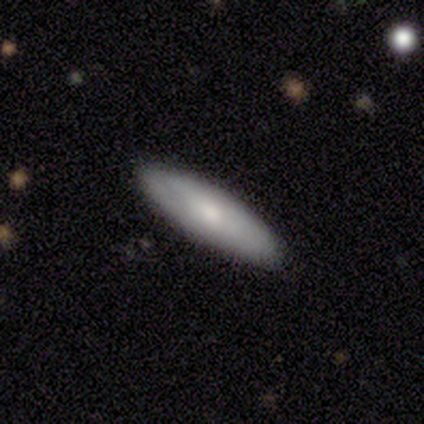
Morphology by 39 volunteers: Volunteers were most divided on "how rounded": cigar-shaped: 57%, in between: 43%, round: 0%. More confident: merging — none (95%); smooth or featured — smooth (72%).